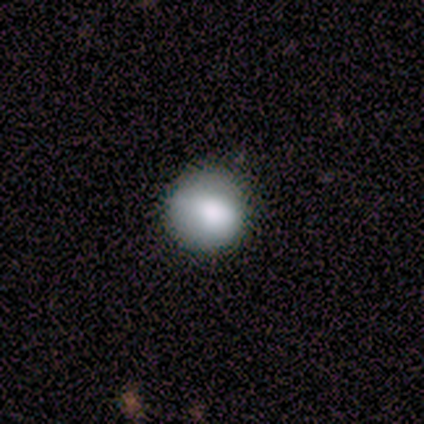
Smooth or featured? smooth (80%)
How rounded? round (100%)
Merging? none (40%, tied with major disturbance)